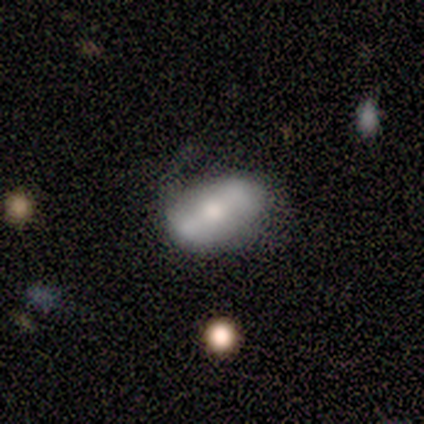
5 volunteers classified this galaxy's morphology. Smooth or featured?
  - smooth: 60% *
  - featured or disk: 40%
  - star or artifact: 0%
How rounded?
  - in between: 100% *
  - round: 0%
  - cigar-shaped: 0%
Merging?
  - none: 60% *
  - minor disturbance: 20%
  - merger: 20%
  - major disturbance: 0%